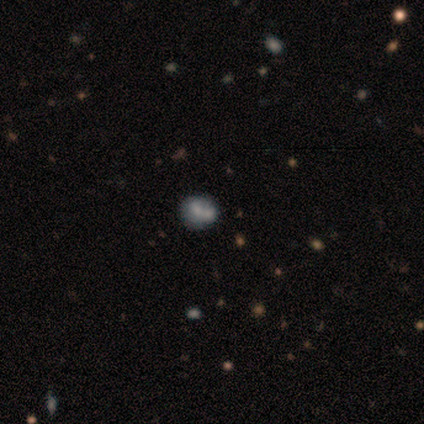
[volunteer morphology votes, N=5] Q: Smooth or featured?
A: smooth (100%)
Q: How rounded?
A: round (80%); runner-up: in between (20%)
Q: Merging?
A: none (60%); runner-up: merger (40%)